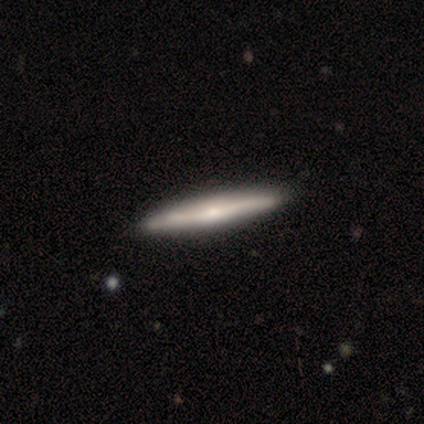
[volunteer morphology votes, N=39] Smooth or featured: featured or disk — 69% (smooth — 28%)
Edge-on disk: yes — 93% (no — 7%)
Edge-on bulge: rounded — 60% (none — 32%)
Merging: none — 74% (merger — 8%)